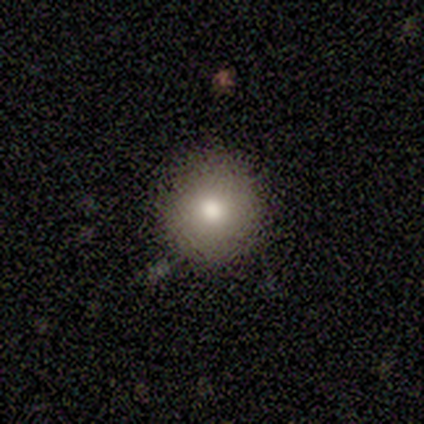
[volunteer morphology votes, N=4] This is possibly a smooth galaxy (50%, tied with featured or disk). How rounded: clearly round (100%). Merging: likely none (75%).